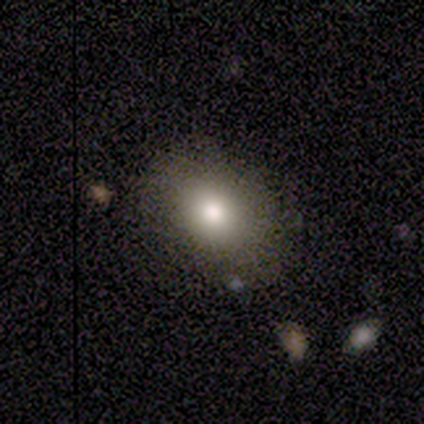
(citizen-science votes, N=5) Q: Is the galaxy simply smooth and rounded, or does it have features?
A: smooth — 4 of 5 (80%).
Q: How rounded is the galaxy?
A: round — 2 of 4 (50%, tied with in between).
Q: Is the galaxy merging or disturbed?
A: none — 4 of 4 (100%).